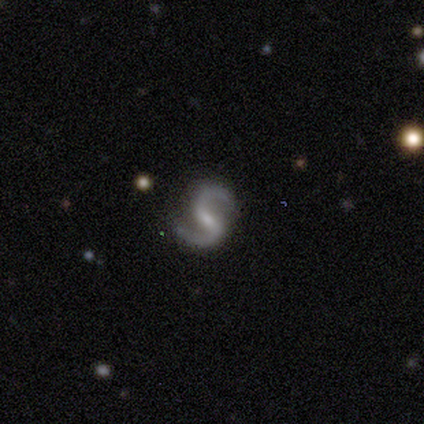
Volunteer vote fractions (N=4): smooth-or-featured: featured or disk: 100% | smooth: 0% | star or artifact: 0%
  disk-edge-on: no: 100% | yes: 0%
    bar: weak: 50% | strong: 25% | no: 25%
    has-spiral-arms: yes: 100% | no: 0%
      spiral-winding: medium: 50% (tied) | loose: 50% (tied) | tight: 0%
      spiral-arm-count: 2: 100% | 1: 0% | 3: 0% | 4: 0% | more than 4: 0% | can't tell: 0%
    bulge-size: small: 75% | moderate: 25% | dominant: 0% | large: 0% | none: 0%
  merging: none: 100% | minor disturbance: 0% | major disturbance: 0% | merger: 0%